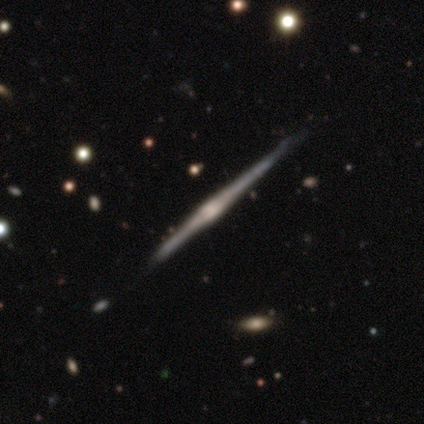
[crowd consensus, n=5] Smooth or featured? 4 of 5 (80%) said featured or disk. Edge-on disk? 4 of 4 (100%) said yes. Edge-on bulge? 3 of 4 (75%) said rounded. Merging? 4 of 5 (80%) said none.